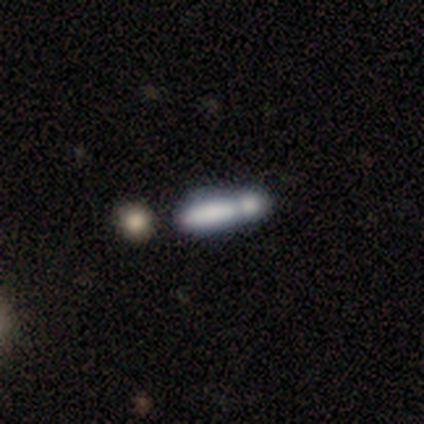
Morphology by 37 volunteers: smooth_or_featured: smooth (p=0.76) [alt: featured or disk p=0.24]
how_rounded: cigar-shaped (p=0.68) [alt: in between p=0.32]
merging: merger (p=0.65) [alt: none p=0.19]